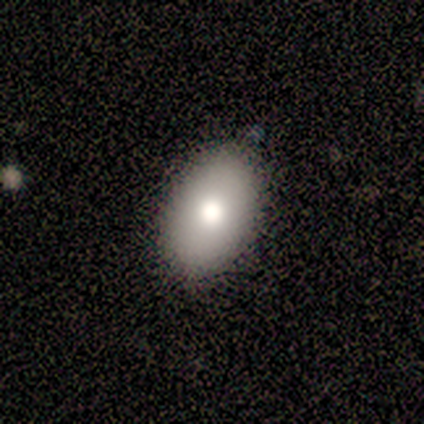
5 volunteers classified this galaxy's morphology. Smooth or featured? smooth (100%)
How rounded? in between (100%)
Merging? none (100%)